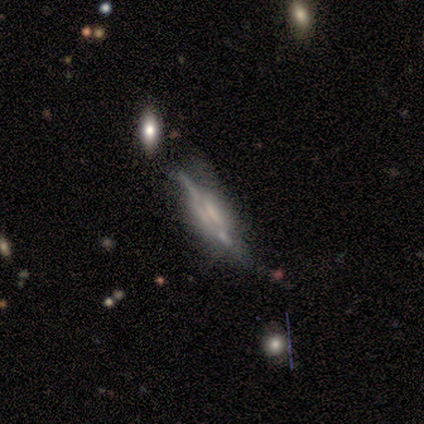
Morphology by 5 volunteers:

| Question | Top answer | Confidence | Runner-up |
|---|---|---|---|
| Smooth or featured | featured or disk | 100% | — |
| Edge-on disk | yes | 80% | no (20%) |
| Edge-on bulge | boxy | 100% | — |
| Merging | none | 40% | tied: minor disturbance (40%) |